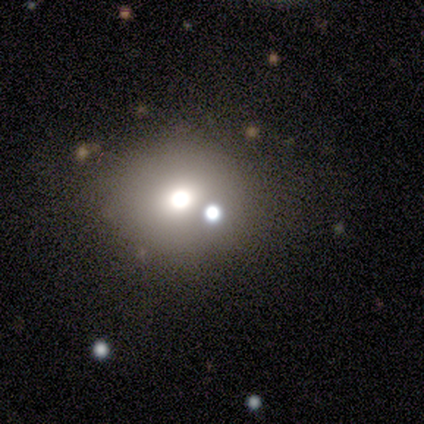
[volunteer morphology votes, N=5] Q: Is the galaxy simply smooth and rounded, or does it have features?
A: smooth — 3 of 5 (60%).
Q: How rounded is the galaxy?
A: round — 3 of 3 (100%).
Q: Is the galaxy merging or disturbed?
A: none — 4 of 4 (100%).